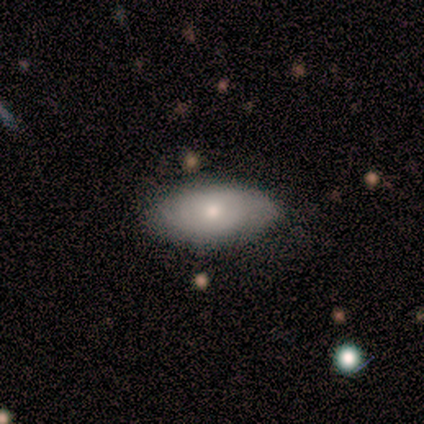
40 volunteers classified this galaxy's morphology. smooth 68%, featured or disk 25%, star or artifact 8%. Down the decision tree: how rounded — in between (96%); merging — none (78%).